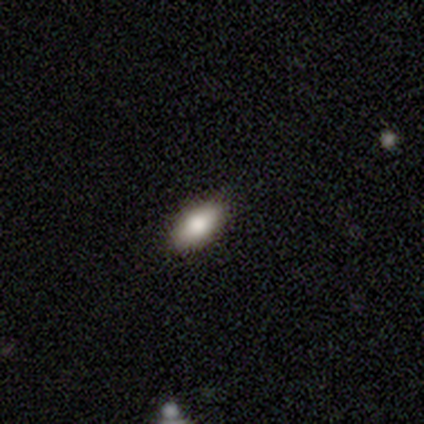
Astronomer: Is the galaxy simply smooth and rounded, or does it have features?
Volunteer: smooth — 86%.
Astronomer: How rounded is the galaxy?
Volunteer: in between — 93%.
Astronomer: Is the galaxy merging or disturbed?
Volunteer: none — 96%.